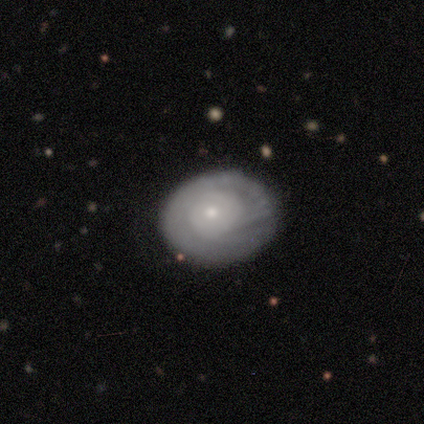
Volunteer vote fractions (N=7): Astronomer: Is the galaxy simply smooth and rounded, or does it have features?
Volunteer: featured or disk — 71%.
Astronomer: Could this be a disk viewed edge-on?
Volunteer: no — 100%.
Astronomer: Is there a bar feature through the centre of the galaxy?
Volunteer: no — 80%.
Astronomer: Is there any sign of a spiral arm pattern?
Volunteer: yes — 60% (runner-up: no, 40%).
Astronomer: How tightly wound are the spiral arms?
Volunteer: tight — 100%.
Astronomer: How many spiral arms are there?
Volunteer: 2 — 67%.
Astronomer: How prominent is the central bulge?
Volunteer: small — 80%.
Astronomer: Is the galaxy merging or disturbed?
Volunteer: none — 100%.